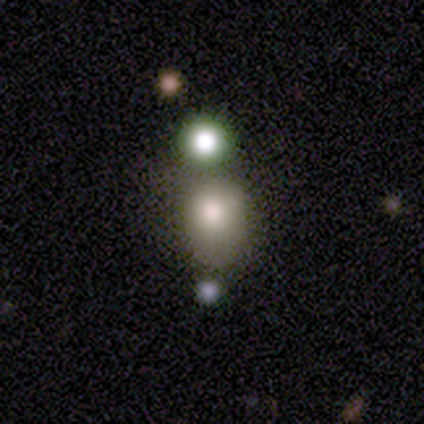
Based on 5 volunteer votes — smooth-or-featured: smooth: 80% | featured or disk: 20% | star or artifact: 0%
  how-rounded: round: 100% | in between: 0% | cigar-shaped: 0%
  merging: none: 60% | minor disturbance: 20% | merger: 20% | major disturbance: 0%